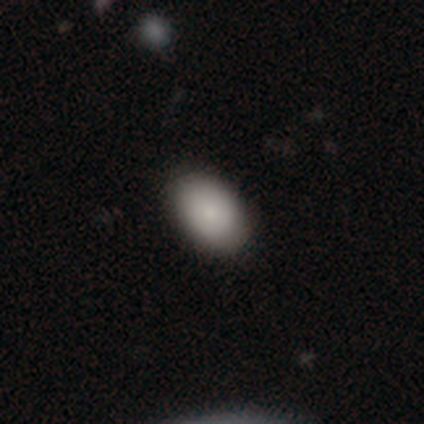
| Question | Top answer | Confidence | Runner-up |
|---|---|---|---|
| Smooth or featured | smooth | 80% | featured or disk (20%) |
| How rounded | in between | 75% | round (25%) |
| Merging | none | 100% | — |